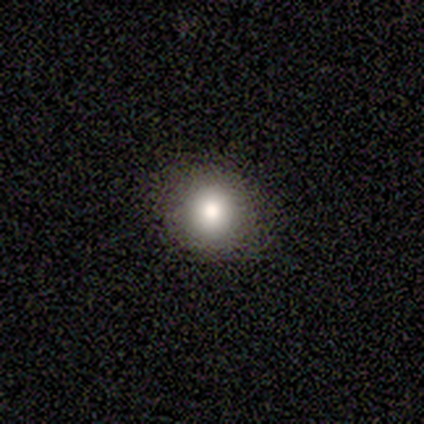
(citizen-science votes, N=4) This appears to be a smooth galaxy with no disk features (75%) that is round (100%). Merging: none (100%).